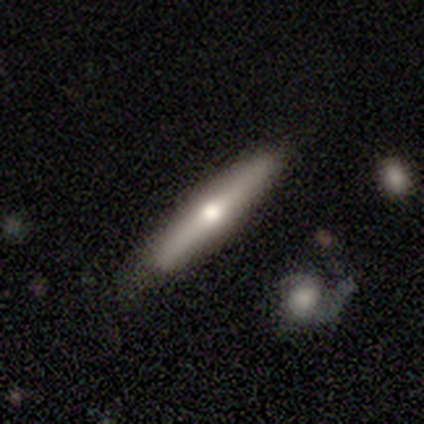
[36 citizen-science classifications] Smooth or featured? featured or disk (69%)
Edge-on disk? yes (100%)
Edge-on bulge? rounded (84%)
Merging? none (83%)